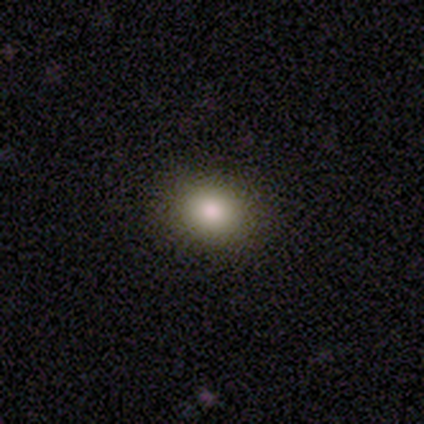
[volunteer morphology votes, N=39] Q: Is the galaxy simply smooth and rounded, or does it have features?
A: smooth — 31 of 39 (79%).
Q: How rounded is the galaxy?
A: in between — 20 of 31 (65%).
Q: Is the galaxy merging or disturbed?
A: none — 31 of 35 (89%).